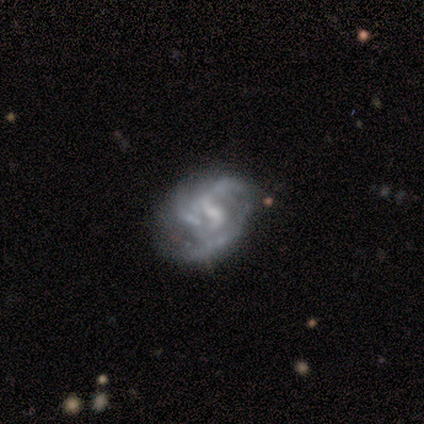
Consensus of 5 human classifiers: Smooth or featured?
  - featured or disk: 60% *
  - smooth: 40%
  - star or artifact: 0%
Edge-on disk?
  - no: 100% *
  - yes: 0%
Bar?
  - no: 67% *
  - weak: 33%
  - strong: 0%
Spiral arms?
  - yes: 100% *
  - no: 0%
Spiral winding?
  - medium: 67% *
  - loose: 33%
  - tight: 0%
Spiral arm count?
  - 3: 67% *
  - can't tell: 33%
  - 1: 0%
  - 2: 0%
  - 4: 0%
  - more than 4: 0%
Bulge size?
  - moderate: 33% * (tied)
  - small: 33% * (tied)
  - none: 33% * (tied)
  - dominant: 0%
  - large: 0%
Merging?
  - none: 100% *
  - minor disturbance: 0%
  - major disturbance: 0%
  - merger: 0%